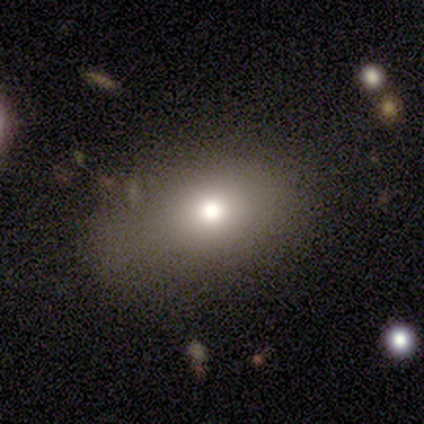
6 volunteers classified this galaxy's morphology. This appears to be a smooth galaxy with no disk features (67%) that is in between round and cigar-shaped (75%). Merging: none (50%, tied with minor disturbance).